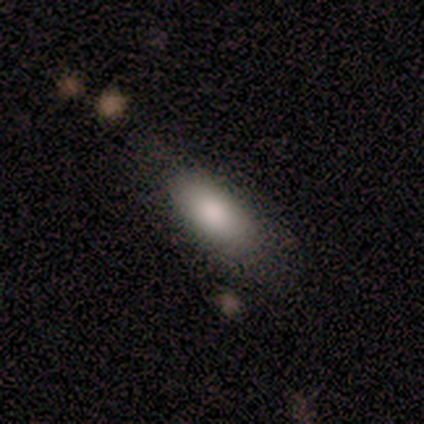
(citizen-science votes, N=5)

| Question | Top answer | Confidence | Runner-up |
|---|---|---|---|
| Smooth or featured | smooth | 100% | — |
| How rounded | in between | 100% | — |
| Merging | none | 100% | — |